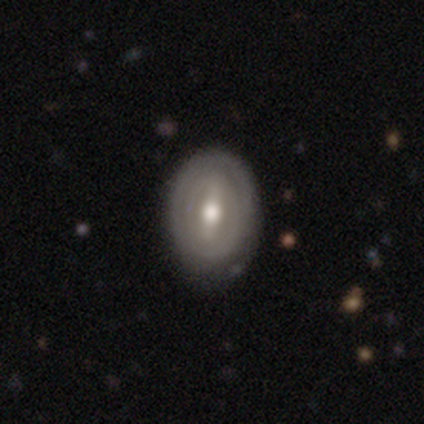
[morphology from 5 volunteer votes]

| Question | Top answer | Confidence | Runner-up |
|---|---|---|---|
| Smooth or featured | featured or disk | 80% | smooth (20%) |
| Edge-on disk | no | 100% | — |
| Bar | strong | 100% | — |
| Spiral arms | yes | 75% | no (25%) |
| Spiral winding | tight | 100% | — |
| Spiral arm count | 2 | 67% | can't tell (33%) |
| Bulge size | moderate | 75% | small (25%) |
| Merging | none | 60% | minor disturbance (40%) |